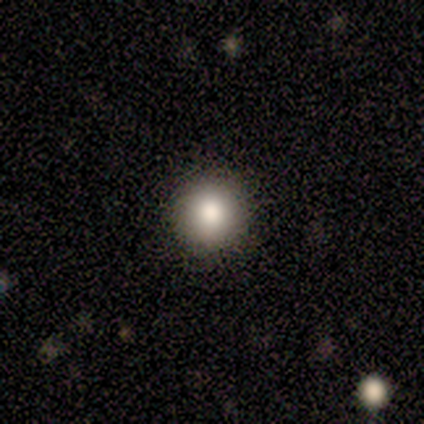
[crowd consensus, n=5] This appears to be a smooth galaxy with no disk features (100%) that is round (100%). Merging: none (100%).